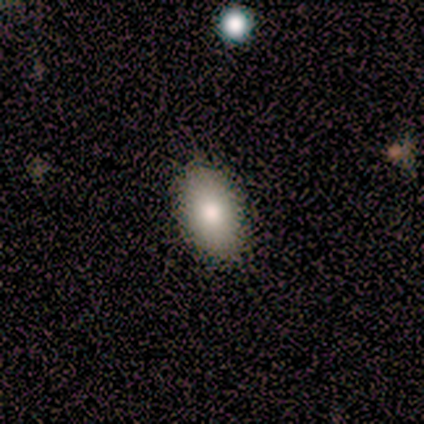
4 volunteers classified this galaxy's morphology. type=smooth (75%); roundness=in between (100%); merging=none (100%).